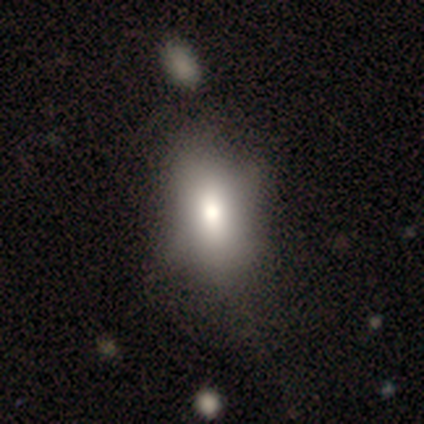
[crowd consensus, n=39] Smooth or featured?
  - smooth: 69% *
  - featured or disk: 21%
  - star or artifact: 10%
How rounded?
  - in between: 89% *
  - cigar-shaped: 7%
  - round: 4%
Merging?
  - none: 34% *
  - minor disturbance: 20%
  - merger: 11%
  - major disturbance: 6%